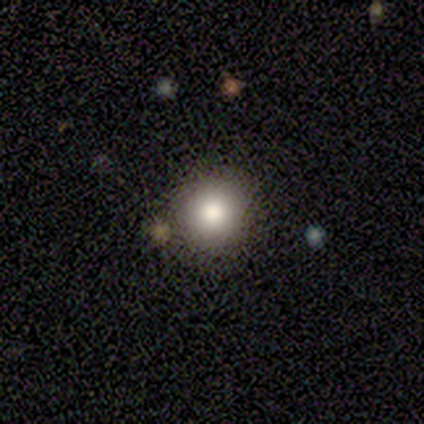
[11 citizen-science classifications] A smooth galaxy with no disk features (73%) that is round (100%).

Vote fractions:
- Smooth or featured? smooth: 73% / featured or disk: 18% / star or artifact: 9%
- How rounded? round: 100% / in between: 0% / cigar-shaped: 0%
- Merging? none: 70% / minor disturbance: 20% / merger: 10% / major disturbance: 0%